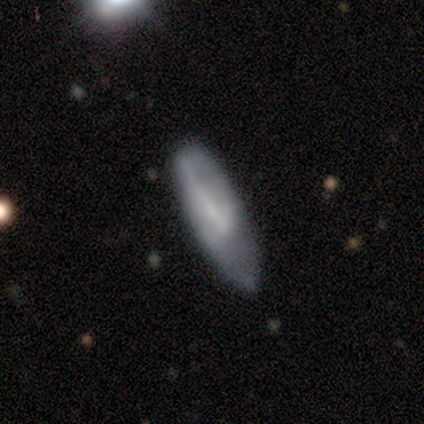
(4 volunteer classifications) Morphology: type=smooth (75%); roundness=in between (100%); merging=none (100%).